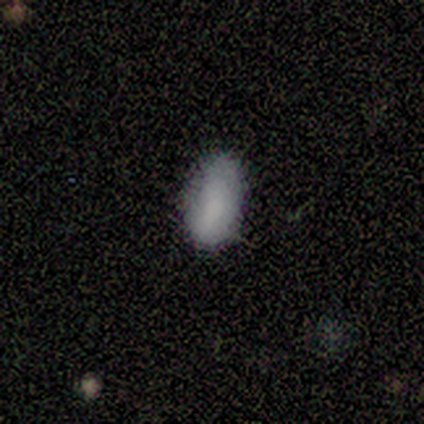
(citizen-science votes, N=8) Smooth or featured? 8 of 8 (100%) said smooth. How rounded? 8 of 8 (100%) said in between. Merging? 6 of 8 (75%) said none.